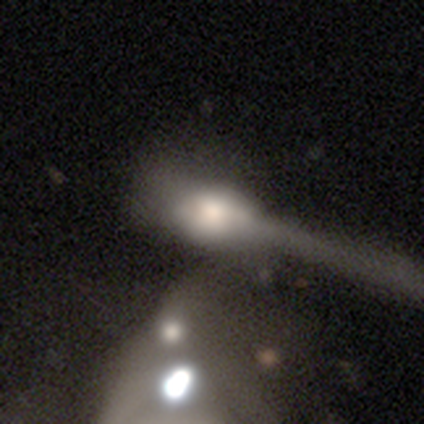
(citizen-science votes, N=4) Q: Smooth or featured?
A: smooth (75%); runner-up: star or artifact (25%)
Q: How rounded?
A: in between (67%); runner-up: cigar-shaped (33%)
Q: Merging?
A: minor disturbance (33%); tied with: major disturbance (33%); merger (33%)